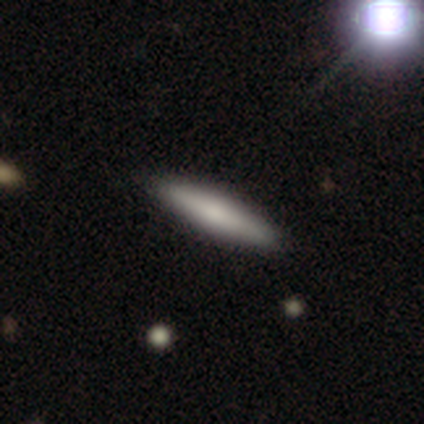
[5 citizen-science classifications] Morphology: type=smooth (60%); roundness=cigar-shaped (100%); merging=none (100%).